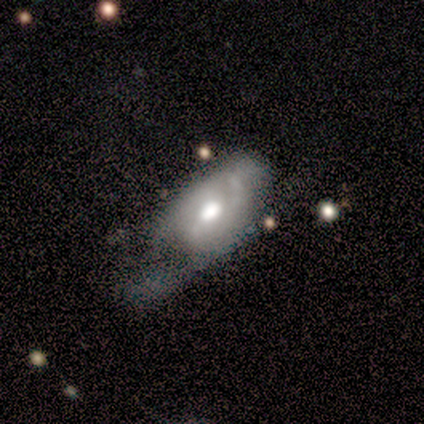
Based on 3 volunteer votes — This appears to be a smooth galaxy with no disk features (100%) that is in between round and cigar-shaped (67%). Merging: none (67%).